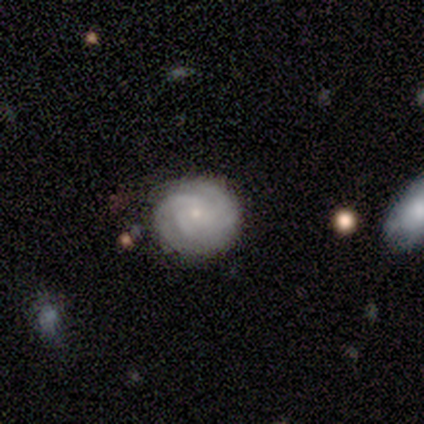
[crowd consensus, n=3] smooth_or_featured: featured or disk (p=0.67) [alt: smooth p=0.33]
disk_edge_on: no (p=1.00)
bar: weak (p=0.50) [tied with: no p=0.50]
has_spiral_arms: yes (p=1.00)
spiral_winding: tight (p=1.00)
spiral_arm_count: 3 (p=0.50) [tied with: 4 p=0.50]
bulge_size: small (p=1.00)
merging: none (p=0.67) [alt: minor disturbance p=0.33]